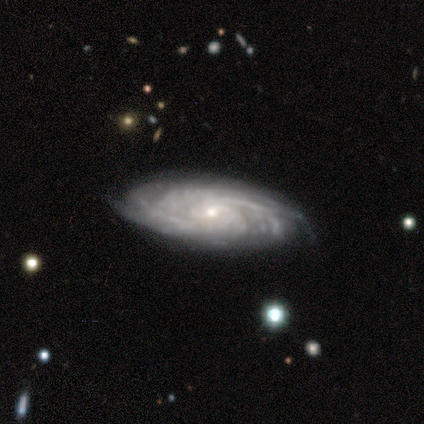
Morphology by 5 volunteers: A featured or disk galaxy (80%) with a weak bar (67%), tight (100%) spiral arms (100%) and a small central bulge (100%).

Vote fractions:
- Smooth or featured? featured or disk: 80% / star or artifact: 20% / smooth: 0%
- Edge-on disk? no: 75% / yes: 25%
- Bar? weak: 67% / no: 33% / strong: 0%
- Spiral arms? yes: 100% / no: 0%
- Spiral winding? tight: 100% / medium: 0% / loose: 0%
- Spiral arm count? can't tell: 67% / more than 4: 33% / 1: 0% / 2: 0% / 3: 0% / 4: 0%
- Bulge size? small: 100% / dominant: 0% / large: 0% / moderate: 0% / none: 0%
- Merging? none: 100% / minor disturbance: 0% / major disturbance: 0% / merger: 0%